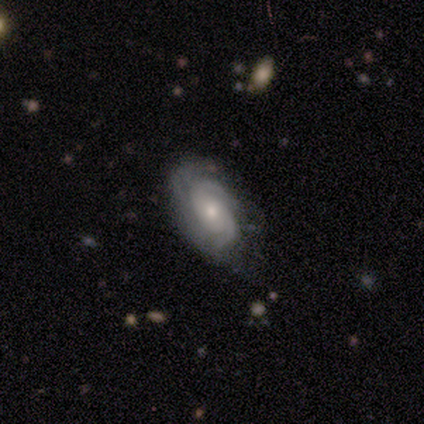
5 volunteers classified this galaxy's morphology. Smooth or featured? 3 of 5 (60%) said featured or disk. Edge-on disk? 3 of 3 (100%) said no. Bar? 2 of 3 (67%) said no. Spiral arms? 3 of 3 (100%) said yes. Spiral winding? 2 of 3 (67%) said medium. Spiral arm count? 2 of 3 (67%) said can't tell. Bulge size? 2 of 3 (67%) said moderate. Merging? 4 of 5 (80%) said none.